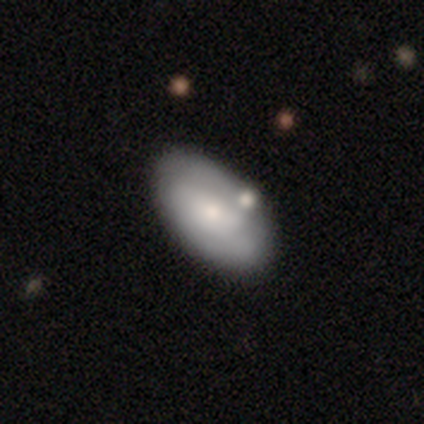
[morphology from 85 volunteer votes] Overall: smooth (55%; featured or disk 41%). How rounded: in between (98%). Merging: none (68%).